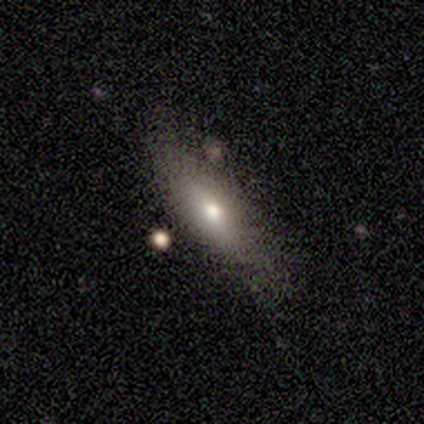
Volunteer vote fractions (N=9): A smooth galaxy with no disk features (89%) that is cigar-shaped (62%).

Vote fractions:
- Smooth or featured? smooth: 89% / star or artifact: 11% / featured or disk: 0%
- How rounded? cigar-shaped: 62% / in between: 38% / round: 0%
- Merging? none: 75% / minor disturbance: 25% / major disturbance: 0% / merger: 0%